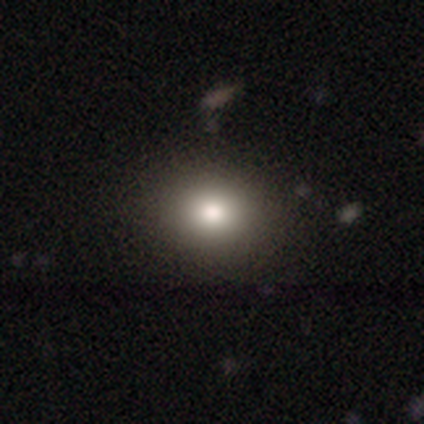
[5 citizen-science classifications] smooth-or-featured: smooth: 100% | featured or disk: 0% | star or artifact: 0%
  how-rounded: round: 80% | in between: 20% | cigar-shaped: 0%
  merging: none: 80% | minor disturbance: 20% | major disturbance: 0% | merger: 0%